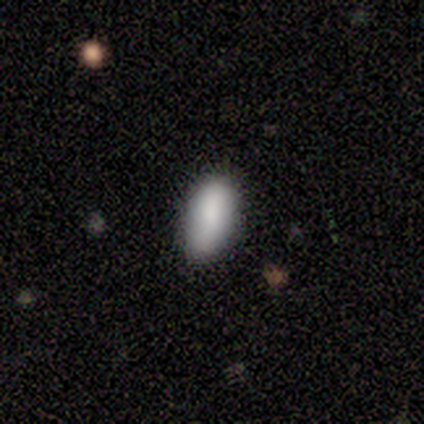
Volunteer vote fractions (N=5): Smooth or featured? 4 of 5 (80%) said smooth. How rounded? 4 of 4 (100%) said in between. Merging? 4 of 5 (80%) said none.